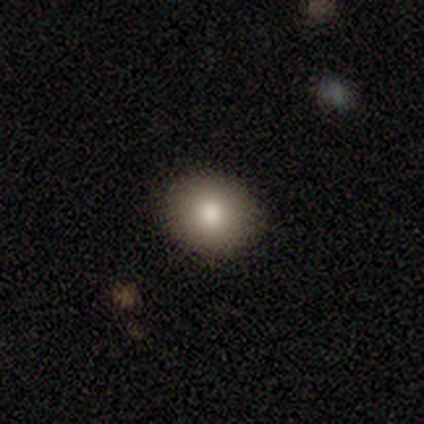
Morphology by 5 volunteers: This appears to be a smooth galaxy with no disk features (100%) that is round (100%). Merging: none (100%).